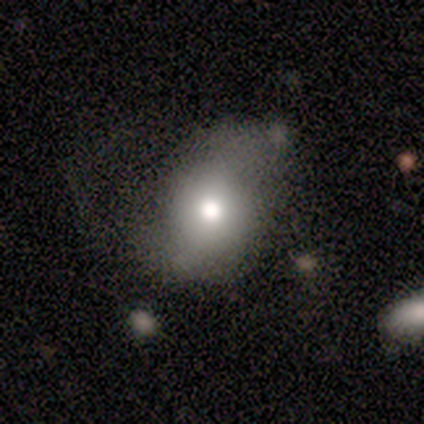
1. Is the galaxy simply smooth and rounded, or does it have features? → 67% smooth, 22% featured or disk, 11% star or artifact.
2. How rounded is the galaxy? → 67% in between, 33% round, 0% cigar-shaped.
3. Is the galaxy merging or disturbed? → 50% minor disturbance, 38% none, 12% major disturbance, 0% merger.